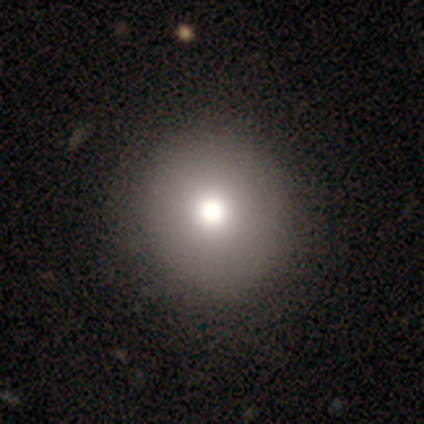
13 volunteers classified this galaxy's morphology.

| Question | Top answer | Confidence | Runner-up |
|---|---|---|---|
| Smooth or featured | smooth | 69% | star or artifact (23%) |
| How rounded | round | 100% | — |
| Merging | none | 90% | minor disturbance (10%) |